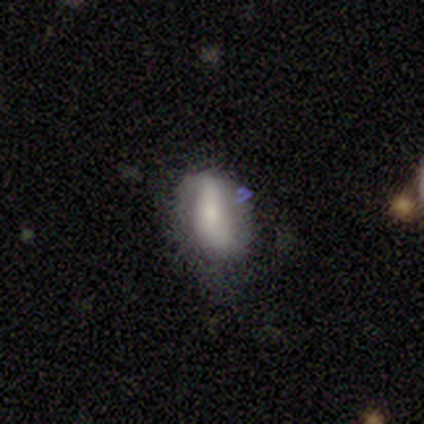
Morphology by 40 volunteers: Q: Smooth or featured?
A: smooth (48%); runner-up: featured or disk (42%)
Q: How rounded?
A: in between (95%); runner-up: cigar-shaped (5%)
Q: Merging?
A: none (47%); runner-up: minor disturbance (33%)